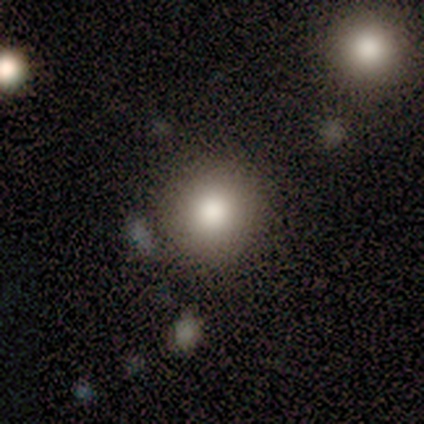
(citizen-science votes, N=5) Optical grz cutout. It shows a smooth galaxy with no disk features (80%) that is round (75%). Merging: none (75%).